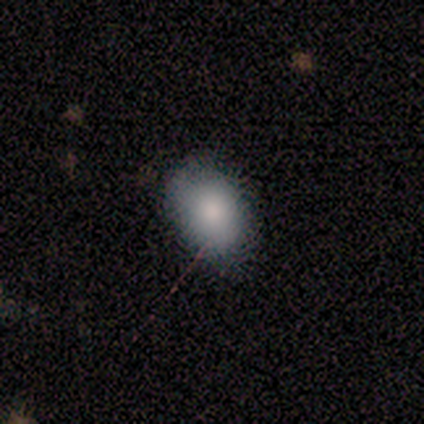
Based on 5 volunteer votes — A smooth galaxy with no disk features (80%) that is round (50%, tied with in between).

Vote fractions:
- Smooth or featured? smooth: 80% / featured or disk: 20% / star or artifact: 0%
- How rounded? round: 50% (tied) / in between: 50% (tied) / cigar-shaped: 0%
- Merging? none: 60% / minor disturbance: 20% / major disturbance: 20% / merger: 0%